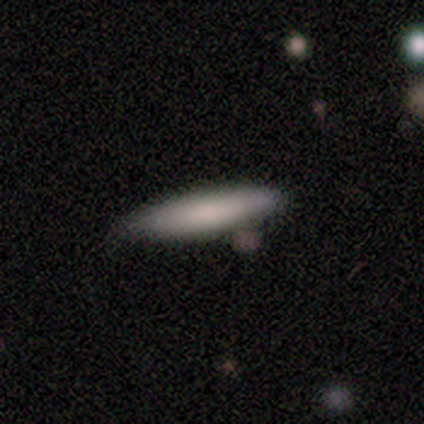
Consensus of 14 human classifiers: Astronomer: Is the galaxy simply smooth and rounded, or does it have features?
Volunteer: smooth — 86%.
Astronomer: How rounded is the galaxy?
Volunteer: cigar-shaped — 83%.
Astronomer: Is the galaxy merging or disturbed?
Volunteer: none — 71%.